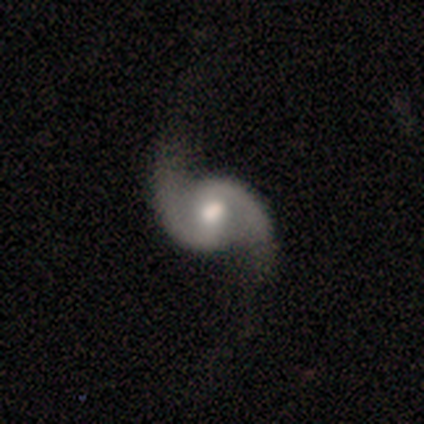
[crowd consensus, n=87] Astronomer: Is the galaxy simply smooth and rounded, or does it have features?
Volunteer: featured or disk — 93%.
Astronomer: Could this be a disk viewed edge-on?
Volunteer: no — 94%.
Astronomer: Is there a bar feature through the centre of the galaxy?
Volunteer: weak — 39% (runner-up: no, 33%).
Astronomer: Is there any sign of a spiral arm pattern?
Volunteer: yes — 96%.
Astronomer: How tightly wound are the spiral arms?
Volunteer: medium — 47%, tied with loose at 47%.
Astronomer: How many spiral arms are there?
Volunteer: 2 — 99%.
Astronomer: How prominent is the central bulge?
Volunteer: moderate — 71%.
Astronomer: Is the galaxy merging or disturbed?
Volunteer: none — 80%.